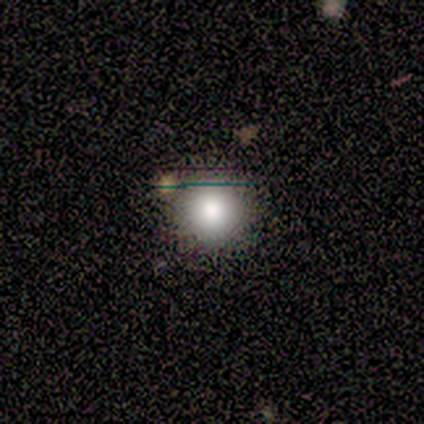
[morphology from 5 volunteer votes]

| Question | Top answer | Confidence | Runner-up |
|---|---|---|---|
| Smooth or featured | smooth | 100% | — |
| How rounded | round | 100% | — |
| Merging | none | 80% | major disturbance (20%) |